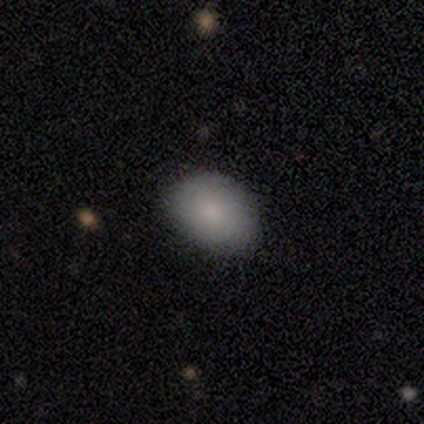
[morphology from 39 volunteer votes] This is clearly a smooth galaxy (92%). How rounded: likely in between (69%). Merging: possibly none (51%).